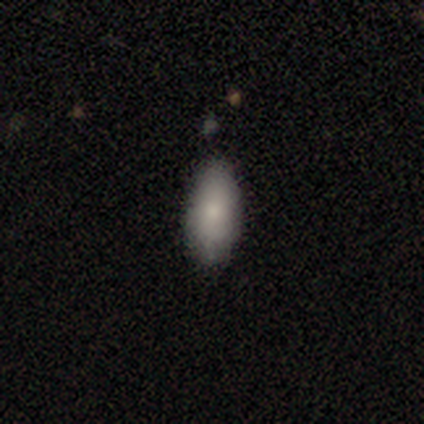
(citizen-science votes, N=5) This appears to be a smooth galaxy with no disk features (60%) that is in between round and cigar-shaped (100%). Merging: none (100%).